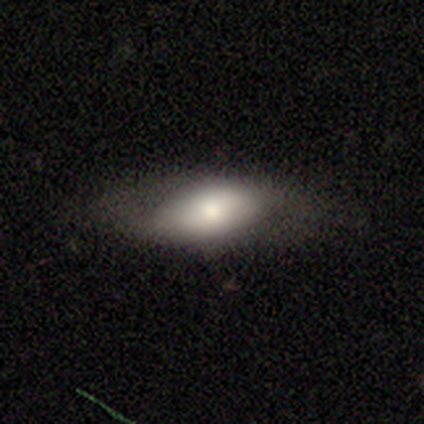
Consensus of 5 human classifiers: featured or disk 80%, smooth 20%, star or artifact 0%. Down the decision tree: edge-on disk — yes (50%, tied with no); edge-on bulge — rounded (100%); merging — none (100%).